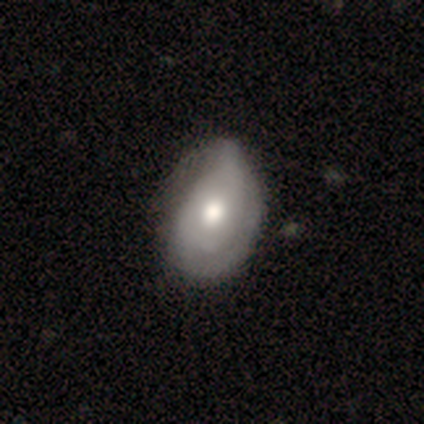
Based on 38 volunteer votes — featured or disk 63%, smooth 37%, star or artifact 0%. Down the decision tree: edge-on disk — no (96%); bar — no (91%); spiral arms — yes (52%); spiral arm count — 2 (42%); spiral winding — tight (75%); bulge size — moderate (61%); merging — minor disturbance (45%).